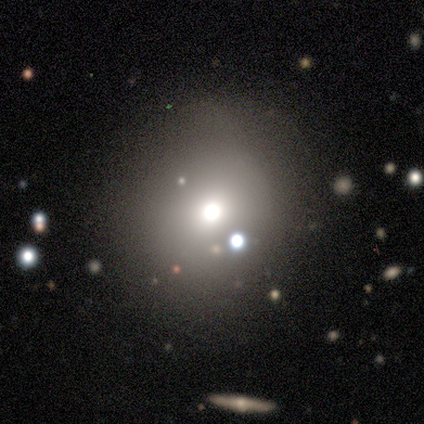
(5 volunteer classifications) smooth 60%, featured or disk 20%, star or artifact 20%. Down the decision tree: how rounded — round (100%); merging — none (100%).